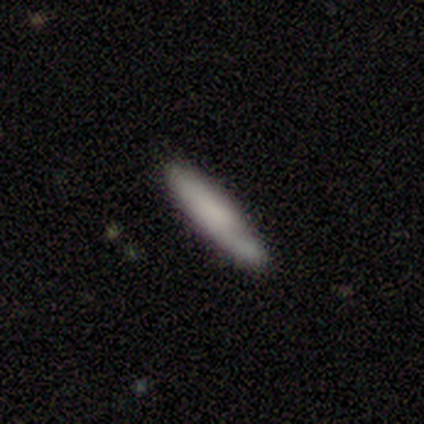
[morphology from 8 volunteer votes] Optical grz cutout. It shows a featured or disk galaxy (62%) with a strong bar (33%, tied with weak and no), 1 (33%, tied with 2 and can't tell) tight (33%, tied with medium and loose) spiral arms (100%) and no central bulge (67%). Merging: none (50%).